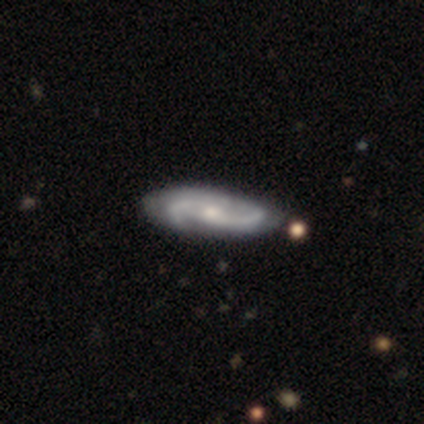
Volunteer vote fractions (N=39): Smooth or featured? featured or disk (79%)
Edge-on disk? no (90%)
Bar? no (75%)
Spiral arms? yes (100%)
Spiral winding? medium (68%)
Spiral arm count? 2 (86%)
Bulge size? moderate (54%)
Merging? none (69%)